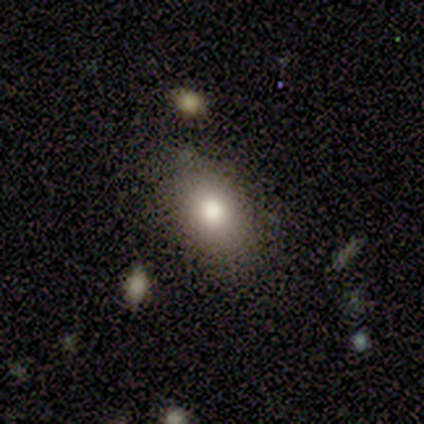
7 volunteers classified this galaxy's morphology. Smooth or featured? smooth (57%)
How rounded? in between (100%)
Merging? none (86%)